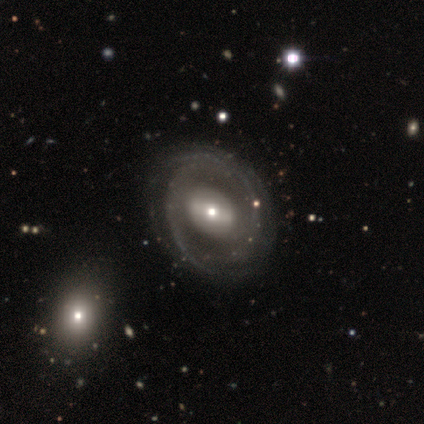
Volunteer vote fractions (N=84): Morphology: type=featured or disk (85%); edge-on=no (99%); bar=weak (43%); spiral arms=yes (71%); winding=tight (50%); arm count=2 (40%); bulge=small (47%); merging=none (55%).